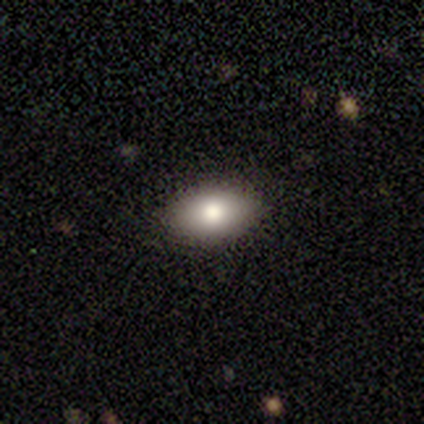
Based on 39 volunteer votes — Overall: smooth (64%; featured or disk 28%). How rounded: in between (84%). Merging: none (92%).